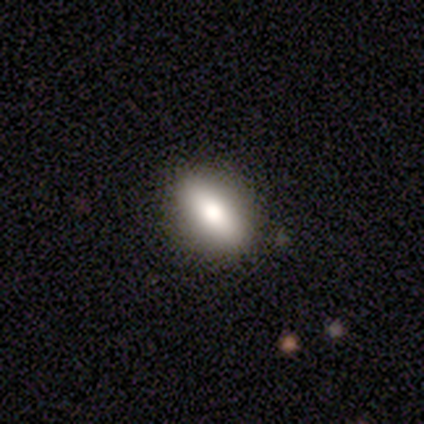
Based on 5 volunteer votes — Smooth or featured?
  - smooth: 80% *
  - featured or disk: 20%
  - star or artifact: 0%
How rounded?
  - in between: 75% *
  - round: 25%
  - cigar-shaped: 0%
Merging?
  - none: 80% *
  - major disturbance: 20%
  - minor disturbance: 0%
  - merger: 0%